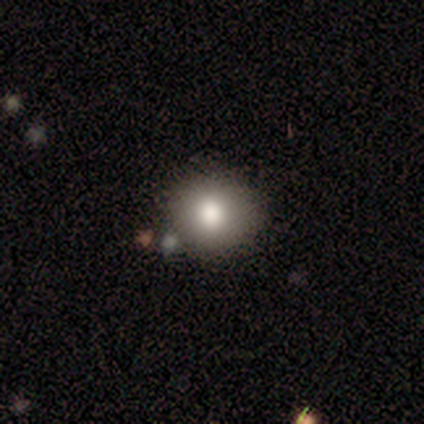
smooth 89%, featured or disk 11%, star or artifact 0%. Down the decision tree: how rounded — round (100%); merging — none (78%).